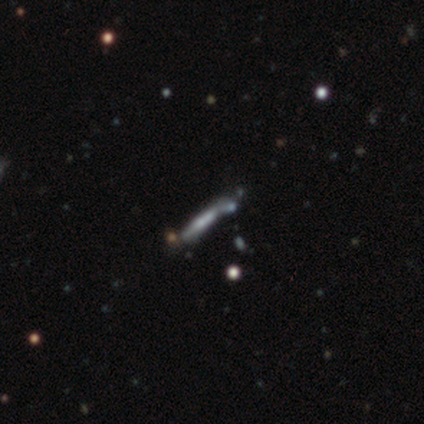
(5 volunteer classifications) Smooth or featured?
  - featured or disk: 80% *
  - smooth: 20%
  - star or artifact: 0%
Edge-on disk?
  - yes: 75% *
  - no: 25%
Edge-on bulge?
  - none: 100% *
  - boxy: 0%
  - rounded: 0%
Merging?
  - none: 100% *
  - minor disturbance: 0%
  - major disturbance: 0%
  - merger: 0%